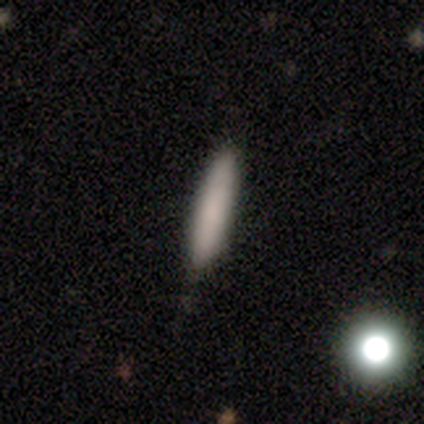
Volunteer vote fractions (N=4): A smooth galaxy with no disk features (100%) that is cigar-shaped (100%).

Vote fractions:
- Smooth or featured? smooth: 100% / featured or disk: 0% / star or artifact: 0%
- How rounded? cigar-shaped: 100% / round: 0% / in between: 0%
- Merging? none: 100% / minor disturbance: 0% / major disturbance: 0% / merger: 0%